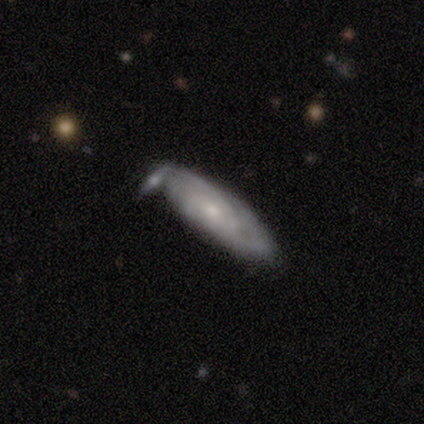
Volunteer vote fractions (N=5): This appears to be a featured or disk galaxy (60%) with no bar (100%), tight (100%) spiral arms (100%) and a moderate central bulge (50%, tied with small). Merging: none (80%).